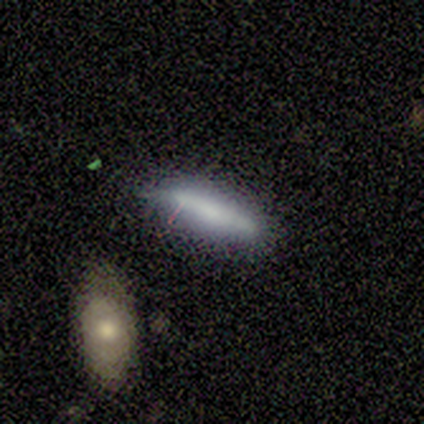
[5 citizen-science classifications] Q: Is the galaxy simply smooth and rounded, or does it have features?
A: smooth — 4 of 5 (80%).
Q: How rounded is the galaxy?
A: cigar-shaped — 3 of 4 (75%).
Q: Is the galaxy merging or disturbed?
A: none — 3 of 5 (60%).